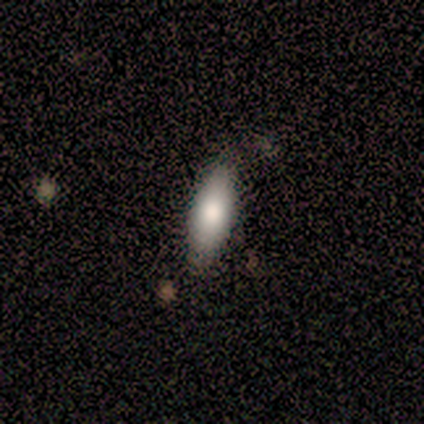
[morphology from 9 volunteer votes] Smooth or featured? 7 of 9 (78%) said smooth. How rounded? 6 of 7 (86%) said in between. Merging? 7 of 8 (88%) said none.